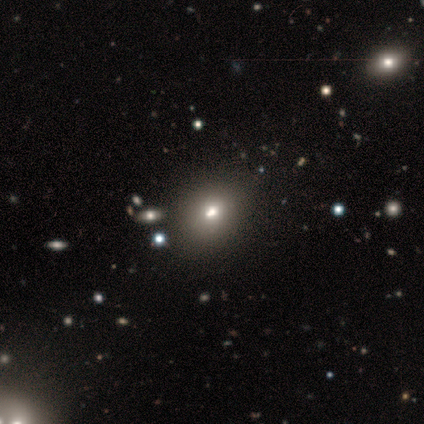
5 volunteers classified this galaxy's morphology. A smooth galaxy with no disk features (80%) that is in between round and cigar-shaped (75%). Merging: none (75%).